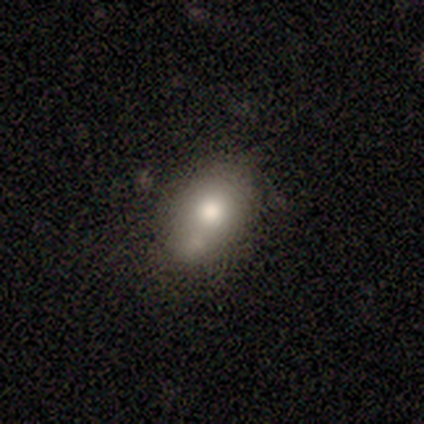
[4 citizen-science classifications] Morphology: type=smooth (100%); roundness=in between (75%); merging=none (50%, tied with merger).